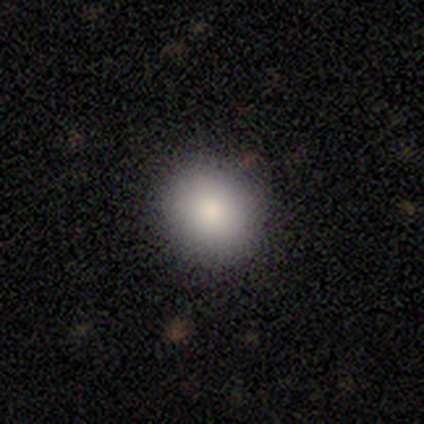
This appears to be a smooth galaxy with no disk features (90%) that is round (86%). Merging: none (94%).